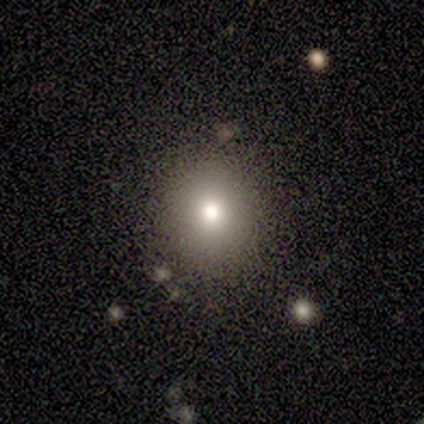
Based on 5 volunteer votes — Volunteers were most divided on "how rounded": round: 75%, in between: 25%, cigar-shaped: 0%. More confident: merging — none (100%); smooth or featured — smooth (80%).